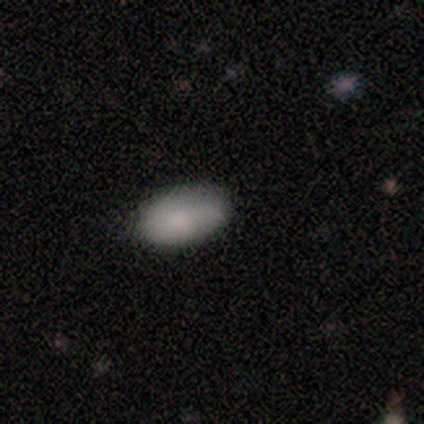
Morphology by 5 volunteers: type=smooth (100%); roundness=in between (100%); merging=minor disturbance (80%).